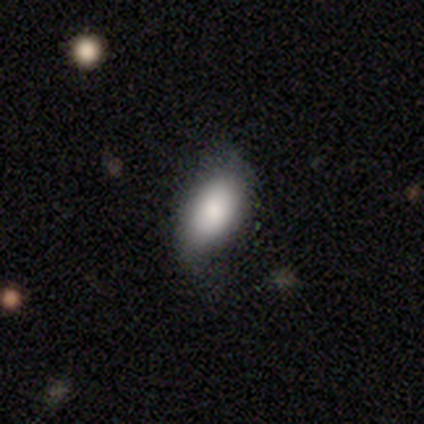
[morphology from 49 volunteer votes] Smooth or featured: smooth — 82% (featured or disk — 10%)
How rounded: in between — 98% (cigar-shaped — 2%)
Merging: none — 58% (minor disturbance — 33%)